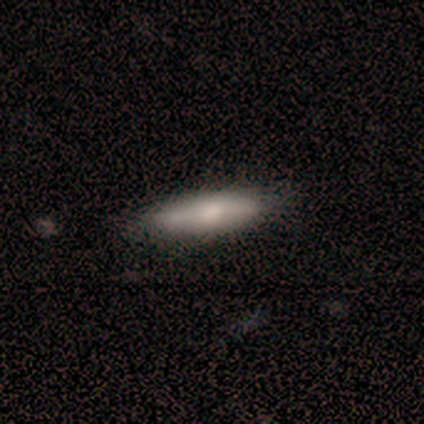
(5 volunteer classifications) Smooth or featured?
  - smooth: 60% *
  - featured or disk: 20%
  - star or artifact: 20%
How rounded?
  - cigar-shaped: 67% *
  - in between: 33%
  - round: 0%
Merging?
  - minor disturbance: 50% *
  - none: 25%
  - major disturbance: 25%
  - merger: 0%